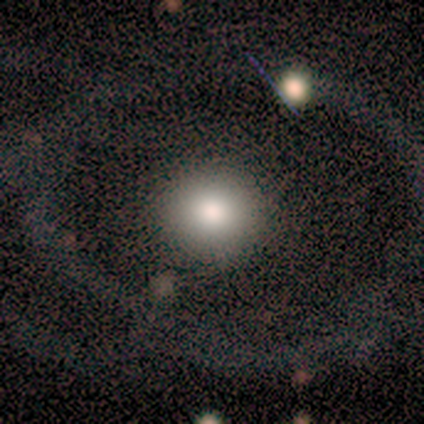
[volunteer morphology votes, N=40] type=smooth (60%); roundness=round (92%); merging=none (79%).